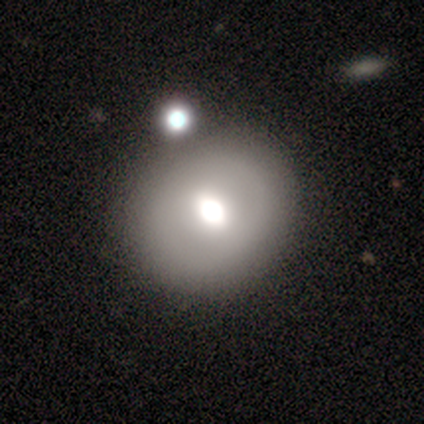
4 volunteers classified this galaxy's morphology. This appears to be a featured or disk galaxy (75%) with a strong bar (33%, tied with weak and no), no spiral arms (100%) and a dominant central bulge (67%). Merging: none (75%).